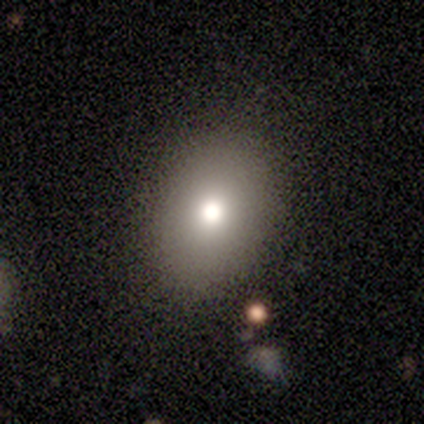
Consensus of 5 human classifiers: This appears to be a smooth galaxy with no disk features (100%) that is in between round and cigar-shaped (80%). Merging: none (80%).